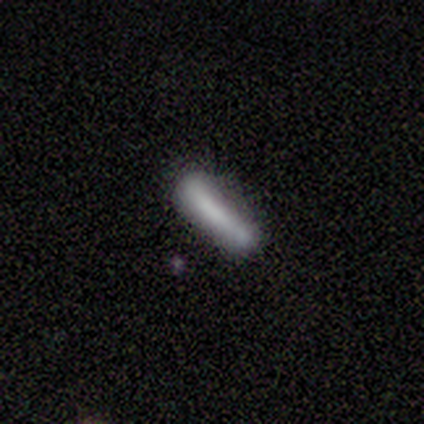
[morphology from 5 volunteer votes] smooth-or-featured: smooth: 80% | star or artifact: 20% | featured or disk: 0%
  how-rounded: cigar-shaped: 100% | round: 0% | in between: 0%
  merging: none: 75% | minor disturbance: 25% | major disturbance: 0% | merger: 0%